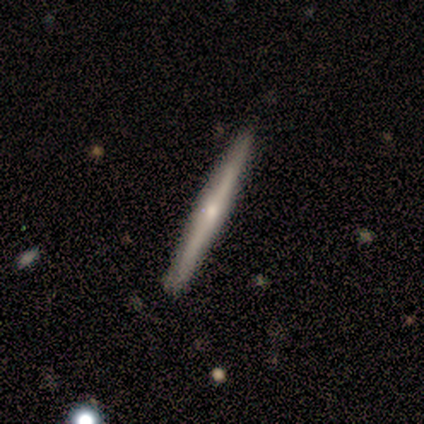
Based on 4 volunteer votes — This is likely a featured or disk galaxy (75%). It is clearly viewed edge-on (100%). Edge-on bulge: likely rounded (67%). Merging: clearly none (100%).